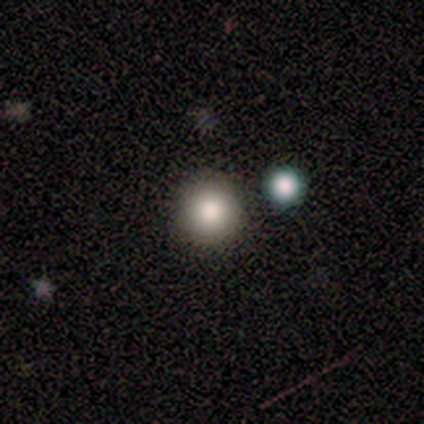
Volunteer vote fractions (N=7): Overall: smooth (100%). How rounded: round (100%). Merging: none (100%).